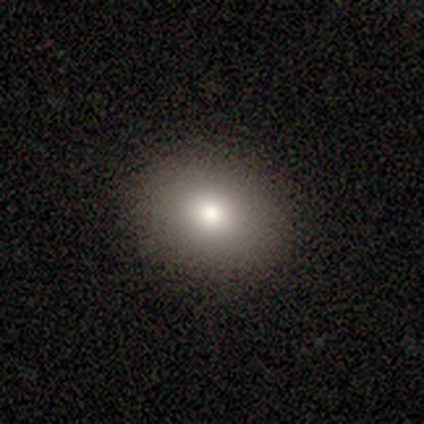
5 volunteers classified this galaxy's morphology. Smooth or featured? smooth (80%)
How rounded? round (50%, tied with in between)
Merging? none (100%)